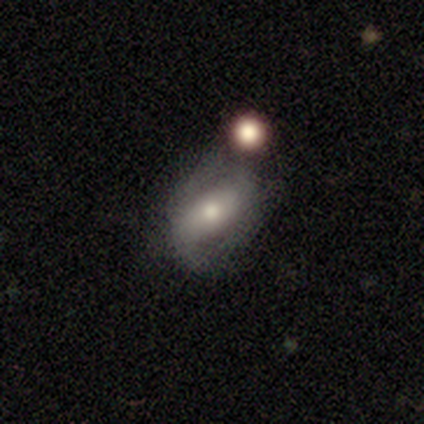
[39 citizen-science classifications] Morphology: type=featured or disk (59%); edge-on=no (96%); bar=no (41%); spiral arms=yes (55%); winding=loose (50%); arm count=2 (92%); bulge=moderate (59%); merging=none (50%).